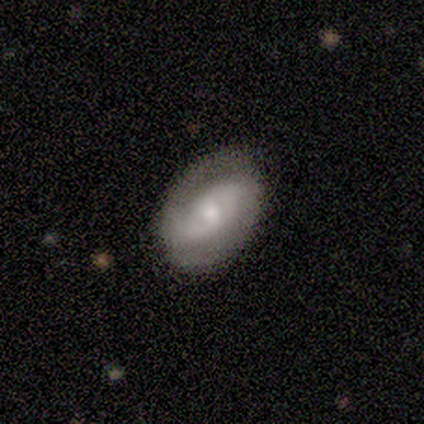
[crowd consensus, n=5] Volunteers were most divided on "smooth or featured": featured or disk: 60%, smooth: 40%, star or artifact: 0%. More confident: edge-on disk — no (100%); bar — no (100%); spiral arms — yes (100%); bulge size — moderate (100%); merging — none (80%); spiral winding — medium (67%); spiral arm count — 2 (67%).